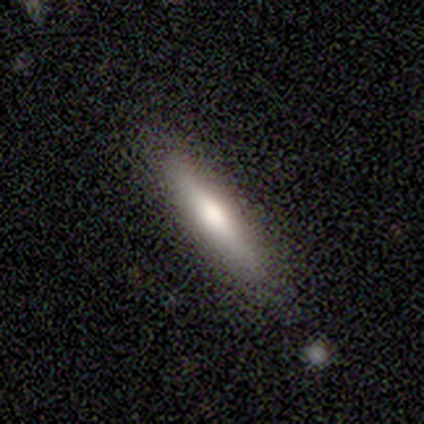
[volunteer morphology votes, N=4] Smooth or featured?
  - smooth: 100% *
  - featured or disk: 0%
  - star or artifact: 0%
How rounded?
  - cigar-shaped: 75% *
  - in between: 25%
  - round: 0%
Merging?
  - none: 100% *
  - minor disturbance: 0%
  - major disturbance: 0%
  - merger: 0%